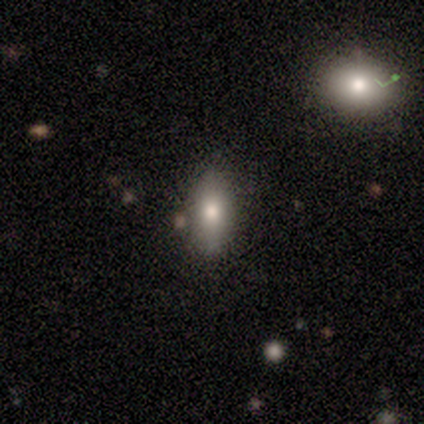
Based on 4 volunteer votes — smooth 100%, featured or disk 0%, star or artifact 0%. Down the decision tree: how rounded — in between (75%); merging — none (100%).